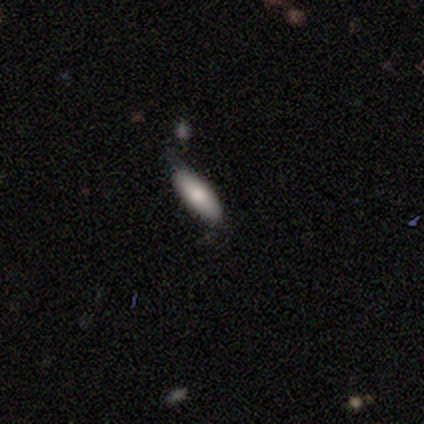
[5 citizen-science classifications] smooth 60%, featured or disk 20%, star or artifact 20%. Down the decision tree: how rounded — in between (100%); merging — none (50%).